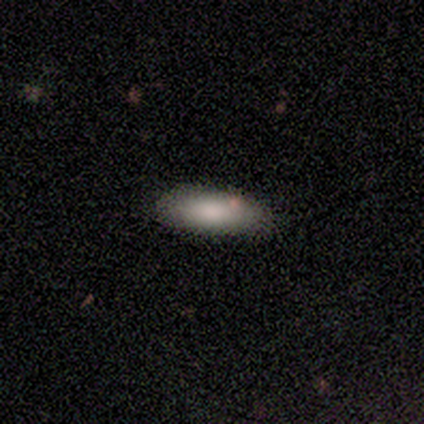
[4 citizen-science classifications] Smooth or featured: smooth — 100%
How rounded: in between — 50% (tied with cigar-shaped — 50%)
Merging: none — 75% (minor disturbance — 25%)